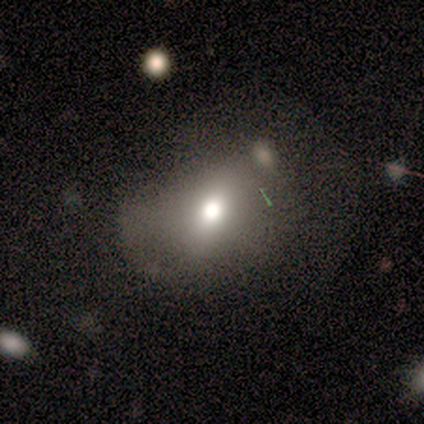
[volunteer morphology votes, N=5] This is clearly a smooth galaxy (100%). How rounded: clearly in between (80%). Merging: likely none (60%).